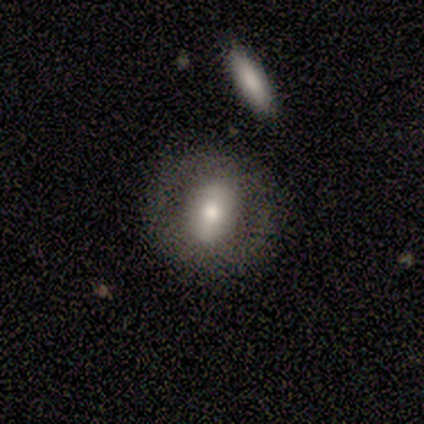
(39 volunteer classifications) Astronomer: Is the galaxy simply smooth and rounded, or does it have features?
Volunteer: featured or disk — 59% (runner-up: smooth, 36%).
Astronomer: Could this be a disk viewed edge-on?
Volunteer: no — 100%.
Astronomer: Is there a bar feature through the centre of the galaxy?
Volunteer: no — 43% (runner-up: strong, 35%).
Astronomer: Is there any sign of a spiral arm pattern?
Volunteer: no — 78%.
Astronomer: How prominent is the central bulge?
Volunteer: moderate — 52% (runner-up: large, 30%).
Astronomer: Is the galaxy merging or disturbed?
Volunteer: none — 73%.